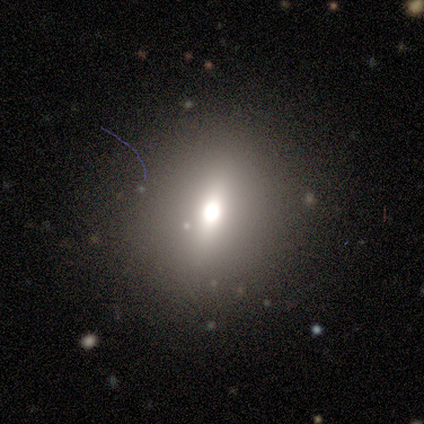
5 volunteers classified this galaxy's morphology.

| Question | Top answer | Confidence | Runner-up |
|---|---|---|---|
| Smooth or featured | featured or disk | 60% | smooth (40%) |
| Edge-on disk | no | 67% | yes (33%) |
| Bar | weak | 100% | — |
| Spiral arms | no | 100% | — |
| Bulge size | dominant | 50% | tied: moderate (50%) |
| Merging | none | 80% | minor disturbance (20%) |